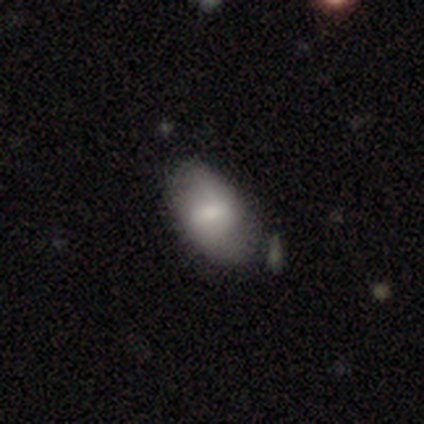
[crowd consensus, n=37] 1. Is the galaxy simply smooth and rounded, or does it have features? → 59% smooth, 38% featured or disk, 3% star or artifact.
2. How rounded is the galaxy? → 91% in between, 9% round, 0% cigar-shaped.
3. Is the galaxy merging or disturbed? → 50% none, 17% merger, 8% minor disturbance, 0% major disturbance.